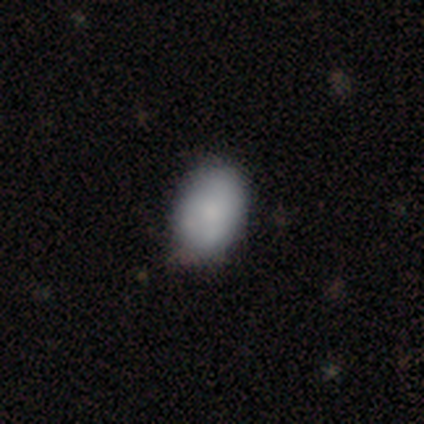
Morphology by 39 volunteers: Overall: smooth (69%). How rounded: in between (85%). Merging: none (58%; minor disturbance 21%).